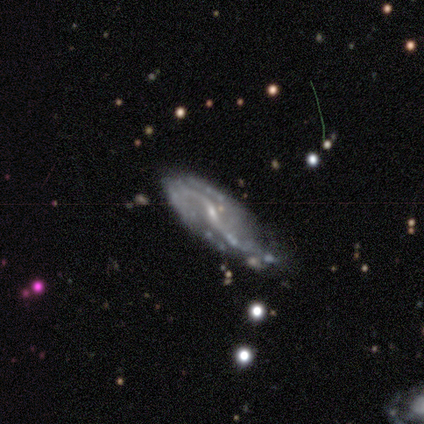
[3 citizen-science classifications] Smooth or featured: featured or disk — 100%
Edge-on disk: no — 100%
Bar: weak — 67% (strong — 33%)
Spiral arms: yes — 100%
Spiral winding: loose — 100%
Spiral arm count: 2 — 100%
Bulge size: small — 100%
Merging: none — 67% (minor disturbance — 33%)